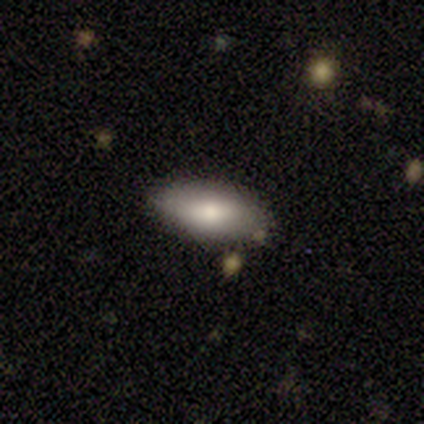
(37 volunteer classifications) Morphology: type=smooth (68%); roundness=in between (92%); merging=none (94%).